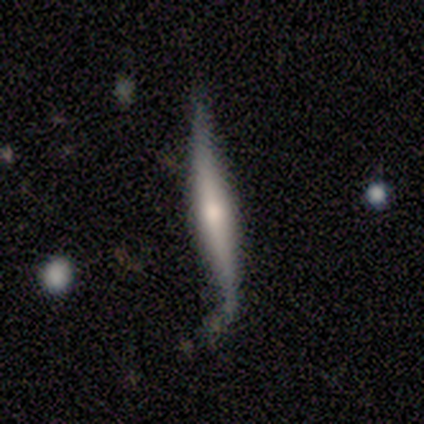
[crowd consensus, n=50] Smooth or featured? 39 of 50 (78%) said featured or disk. Edge-on disk? 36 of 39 (92%) said yes. Edge-on bulge? 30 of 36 (83%) said rounded. Merging? 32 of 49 (65%) said none.